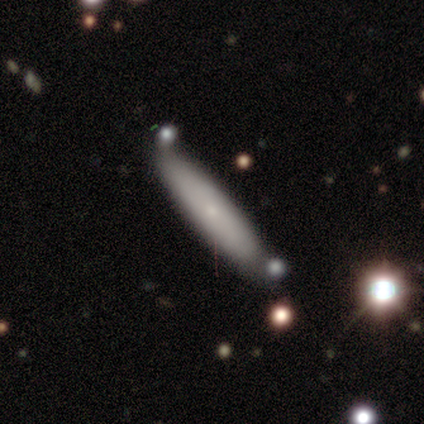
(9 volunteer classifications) This is possibly a smooth galaxy (56%). How rounded: clearly cigar-shaped (100%). Merging: likely none (78%).